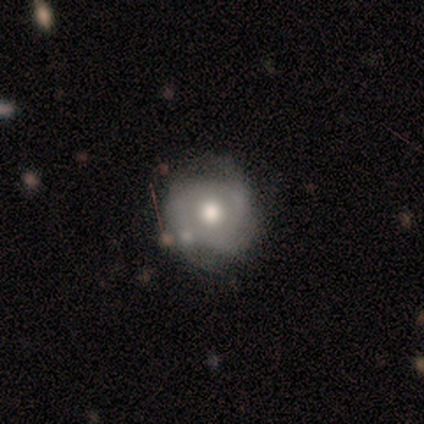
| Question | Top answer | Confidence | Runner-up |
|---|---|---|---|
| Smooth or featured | smooth | 60% | featured or disk (40%) |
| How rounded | round | 100% | — |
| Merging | none | 40% | tied: minor disturbance (40%) |